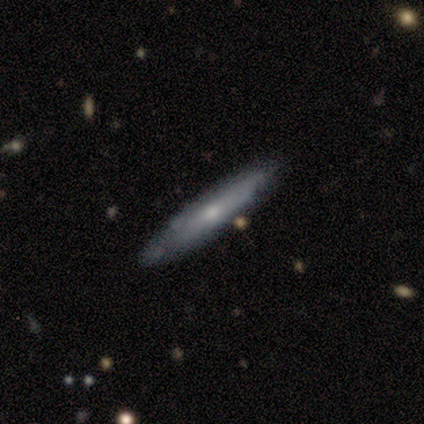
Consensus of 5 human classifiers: Smooth or featured? smooth (60%)
How rounded? cigar-shaped (67%)
Merging? none (80%)